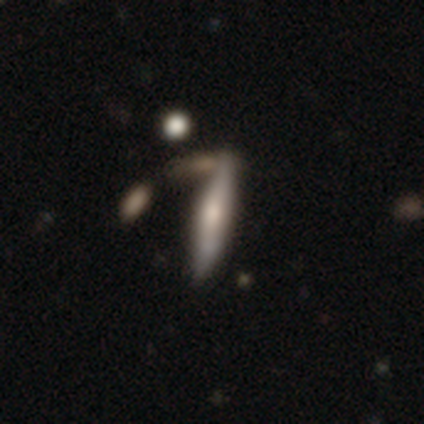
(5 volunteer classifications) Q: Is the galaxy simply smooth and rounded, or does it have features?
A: featured or disk — 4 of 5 (80%).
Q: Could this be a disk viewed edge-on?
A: yes — 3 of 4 (75%).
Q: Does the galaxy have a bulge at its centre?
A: rounded — 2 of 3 (67%).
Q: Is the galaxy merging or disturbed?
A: minor disturbance — 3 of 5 (60%).